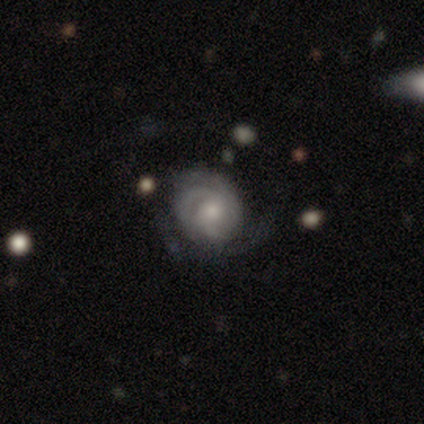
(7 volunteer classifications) Smooth or featured: featured or disk — 86% (smooth — 14%)
Edge-on disk: no — 100%
Bar: no — 100%
Spiral arms: yes — 100%
Spiral winding: tight — 50% (loose — 33%)
Spiral arm count: can't tell — 67% (1 — 33%)
Bulge size: small — 67% (moderate — 33%)
Merging: none — 57% (minor disturbance — 43%)